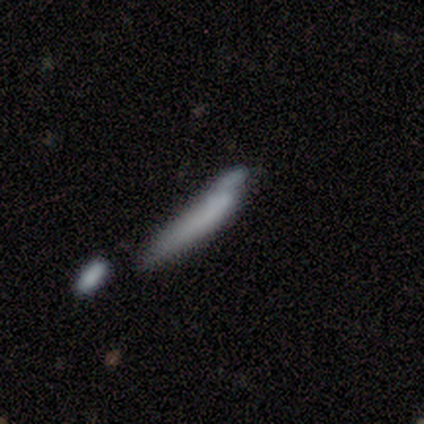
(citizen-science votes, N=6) smooth_or_featured: smooth (p=0.83) [alt: featured or disk p=0.17]
how_rounded: cigar-shaped (p=0.80) [alt: in between p=0.20]
merging: minor disturbance (p=0.33) [tied with: merger p=0.33]